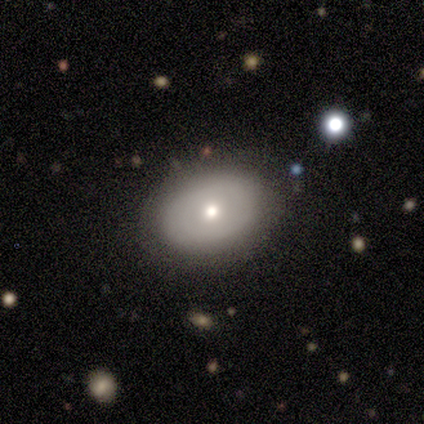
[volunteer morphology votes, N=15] This is possibly a smooth galaxy (53%). How rounded: likely in between (75%). Merging: clearly none (83%).